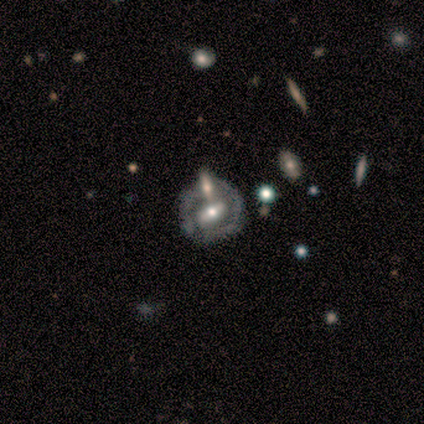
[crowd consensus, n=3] smooth-or-featured: featured or disk: 67% | smooth: 33% | star or artifact: 0%
  disk-edge-on: no: 100% | yes: 0%
    bar: strong: 100% | weak: 0% | no: 0%
    has-spiral-arms: yes: 50% (tied) | no: 50% (tied)
      spiral-winding: tight: 100% | medium: 0% | loose: 0%
      spiral-arm-count: 2: 100% | 1: 0% | 3: 0% | 4: 0% | more than 4: 0% | can't tell: 0%
    bulge-size: moderate: 100% | dominant: 0% | large: 0% | small: 0% | none: 0%
  merging: none: 67% | merger: 33% | minor disturbance: 0% | major disturbance: 0%